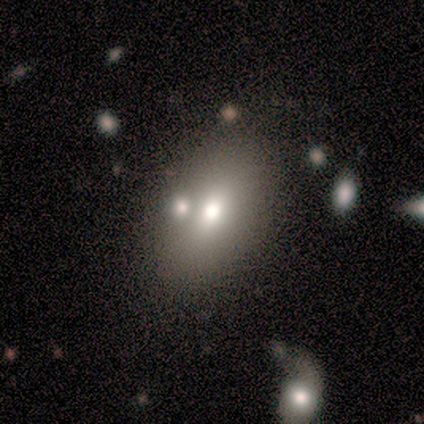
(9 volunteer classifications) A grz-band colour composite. It shows a smooth galaxy with no disk features (56%) that is in between round and cigar-shaped (100%). Merging: none (50%).